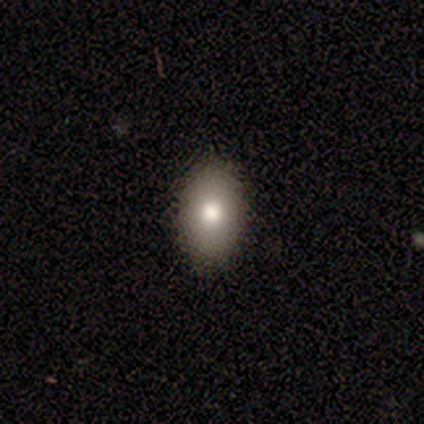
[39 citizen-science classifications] smooth 77%, featured or disk 13%, star or artifact 10%. Down the decision tree: how rounded — in between (93%); merging — none (94%).